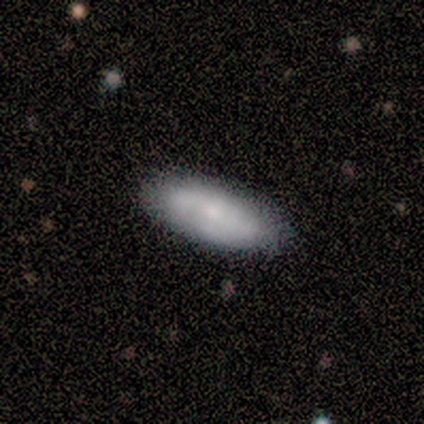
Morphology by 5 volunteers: Smooth or featured? smooth (60%)
How rounded? in between (100%)
Merging? none (80%)